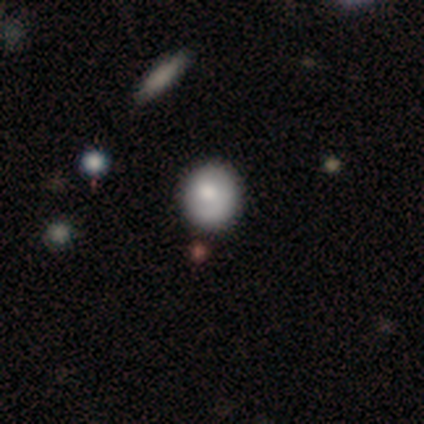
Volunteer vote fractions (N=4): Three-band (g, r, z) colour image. It shows a smooth galaxy with no disk features (100%) that is round (100%). Merging: none (75%).